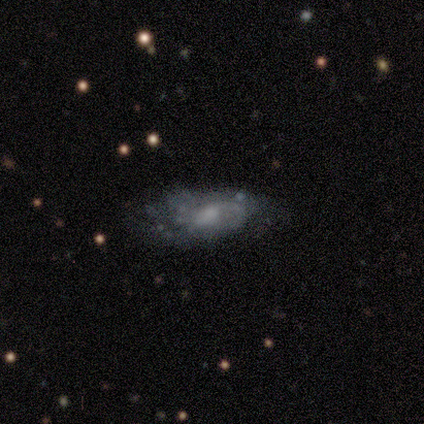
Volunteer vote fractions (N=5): This appears to be a smooth galaxy with no disk features (40%, tied with featured or disk) that is in between round and cigar-shaped (100%). Merging: none (75%).